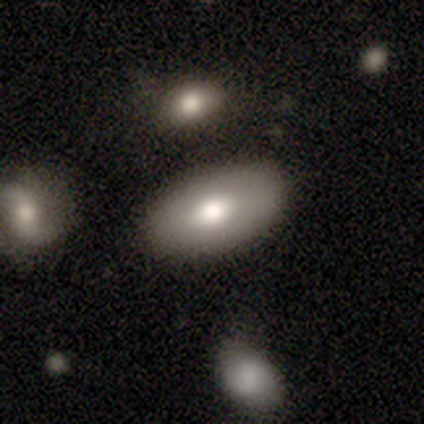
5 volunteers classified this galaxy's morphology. Smooth or featured?
  - smooth: 80% *
  - featured or disk: 20%
  - star or artifact: 0%
How rounded?
  - in between: 100% *
  - round: 0%
  - cigar-shaped: 0%
Merging?
  - none: 80% *
  - merger: 20%
  - minor disturbance: 0%
  - major disturbance: 0%